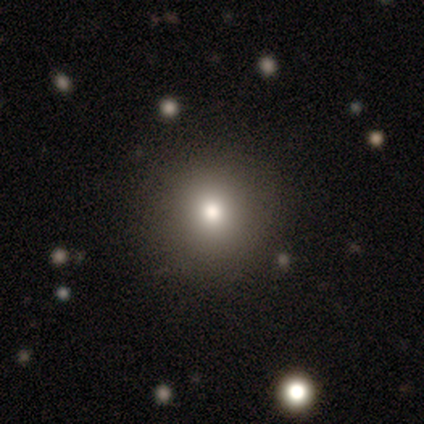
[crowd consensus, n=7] smooth-or-featured: smooth: 71% | featured or disk: 14% | star or artifact: 14%
  how-rounded: round: 100% | in between: 0% | cigar-shaped: 0%
  merging: none: 100% | minor disturbance: 0% | major disturbance: 0% | merger: 0%